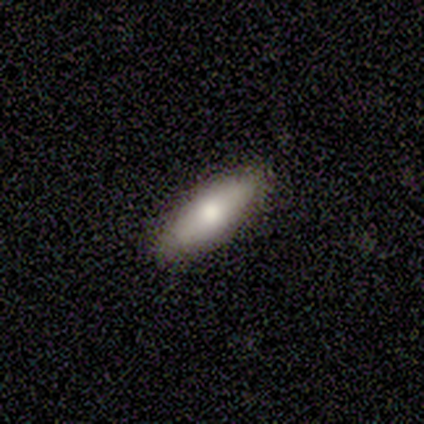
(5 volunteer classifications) Smooth or featured? 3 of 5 (60%) said featured or disk. Edge-on disk? 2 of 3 (67%) said no. Bar? 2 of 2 (100%) said weak. Spiral arms? 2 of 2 (100%) said no. Bulge size? 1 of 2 (50%, tied with small) said moderate. Merging? 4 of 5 (80%) said none.